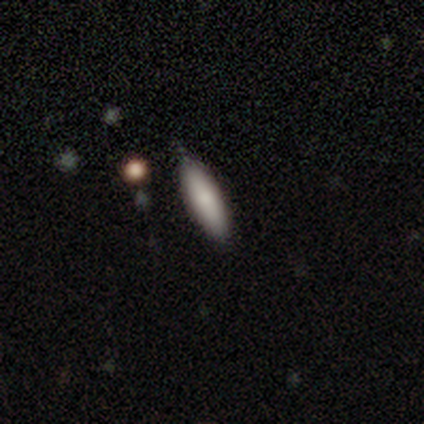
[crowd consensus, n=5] smooth 80%, featured or disk 20%, star or artifact 0%. Down the decision tree: how rounded — in between (50%, tied with cigar-shaped); merging — none (100%).